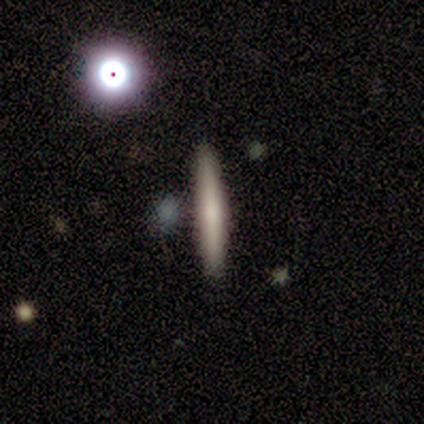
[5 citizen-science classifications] Smooth or featured: smooth — 80% (featured or disk — 20%)
How rounded: cigar-shaped — 75% (in between — 25%)
Merging: none — 100%